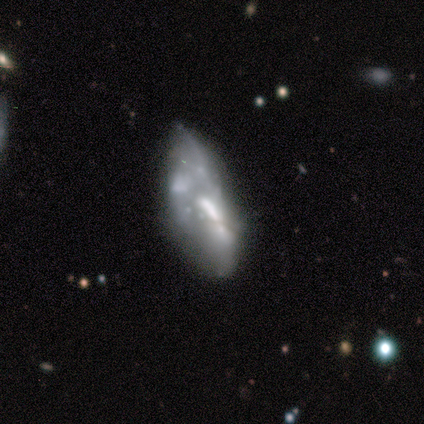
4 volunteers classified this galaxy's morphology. A featured or disk galaxy (100%) with no bar (50%), 2 (50%, tied with can't tell) medium (50%, tied with loose) spiral arms (50%, tied with no) and a moderate central bulge (75%).

Vote fractions:
- Smooth or featured? featured or disk: 100% / smooth: 0% / star or artifact: 0%
- Edge-on disk? no: 100% / yes: 0%
- Bar? no: 50% / strong: 25% / weak: 25%
- Spiral arms? yes: 50% (tied) / no: 50% (tied)
- Spiral winding? medium: 50% (tied) / loose: 50% (tied) / tight: 0%
- Spiral arm count? 2: 50% (tied) / can't tell: 50% (tied) / 1: 0% / 3: 0% / 4: 0% / more than 4: 0%
- Bulge size? moderate: 75% / none: 25% / dominant: 0% / large: 0% / small: 0%
- Merging? none: 50% / minor disturbance: 25% / merger: 25% / major disturbance: 0%